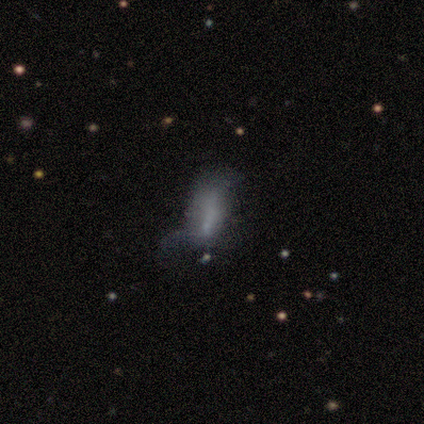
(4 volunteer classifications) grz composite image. It shows a featured or disk galaxy (50%) with no bar (100%), no spiral arms (100%) and a large central bulge (50%, tied with none). Merging: none (67%).